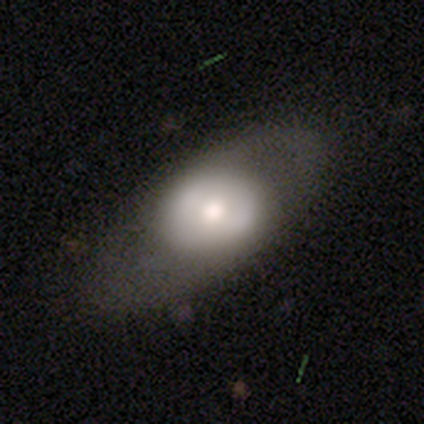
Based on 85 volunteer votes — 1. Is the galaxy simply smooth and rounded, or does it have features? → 51% smooth, 45% featured or disk, 5% star or artifact.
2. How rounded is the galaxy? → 67% in between, 30% round, 2% cigar-shaped.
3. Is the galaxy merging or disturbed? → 63% none, 21% minor disturbance, 15% major disturbance, 1% merger.